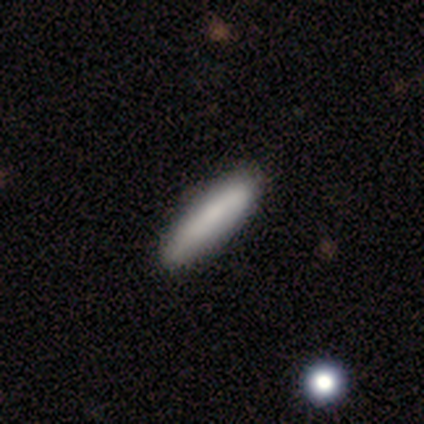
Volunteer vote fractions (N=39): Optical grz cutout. It shows a smooth galaxy with no disk features (77%) that is cigar-shaped (80%). Merging: none (55%).